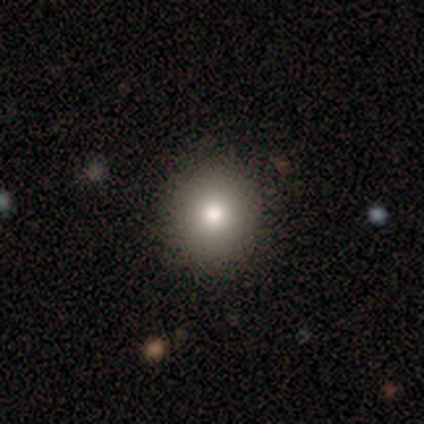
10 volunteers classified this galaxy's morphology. Smooth or featured? 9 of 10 (90%) said smooth. How rounded? 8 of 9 (89%) said round. Merging? 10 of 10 (100%) said none.